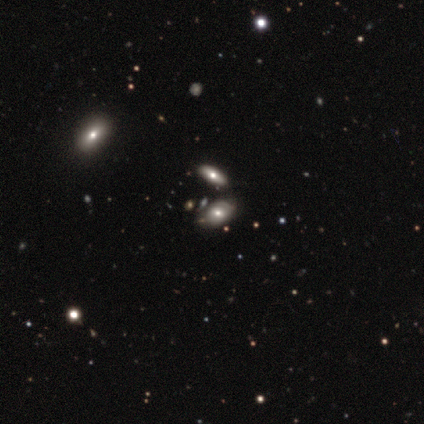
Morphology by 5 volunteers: A featured or disk galaxy (40%, tied with star or artifact) with a weak bar (50%, tied with no), medium (100%) spiral arms (50%, tied with no) and a large central bulge (50%, tied with moderate). Merging: none (100%).